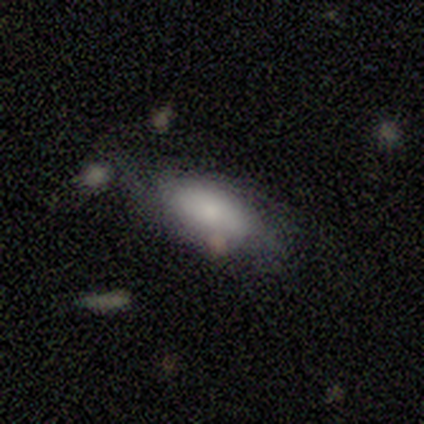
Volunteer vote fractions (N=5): This appears to be a smooth galaxy with no disk features (80%) that is in between round and cigar-shaped (100%). Merging: none (60%).